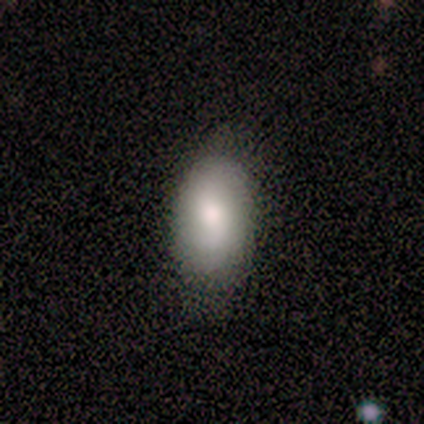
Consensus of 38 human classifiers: A smooth galaxy with no disk features (76%) that is in between round and cigar-shaped (90%).

Vote fractions:
- Smooth or featured? smooth: 76% / featured or disk: 13% / star or artifact: 11%
- How rounded? in between: 90% / round: 7% / cigar-shaped: 3%
- Merging? none: 68% / minor disturbance: 24% / major disturbance: 9% / merger: 0%